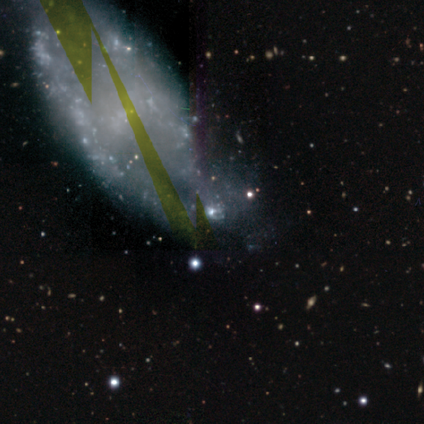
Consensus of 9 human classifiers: A featured or disk galaxy (44%) with no bar (75%), 2 (50%, tied with can't tell) tight (50%, tied with medium) spiral arms (50%, tied with no) and no central bulge (50%). Merging: none (50%).